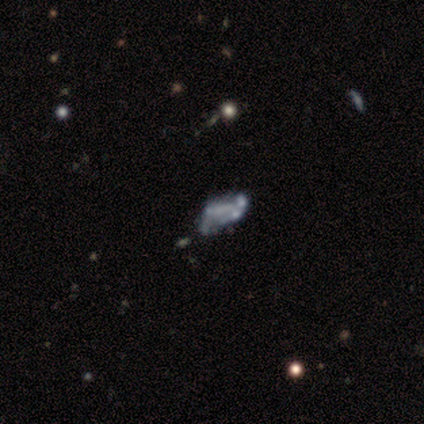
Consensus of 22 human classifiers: Smooth or featured?
  - featured or disk: 41% *
  - smooth: 32%
  - star or artifact: 27%
Edge-on disk?
  - no: 89% *
  - yes: 11%
Bar?
  - no: 75% *
  - strong: 12%
  - weak: 12%
Spiral arms?
  - no: 62% *
  - yes: 38%
Bulge size?
  - none: 75% *
  - moderate: 12%
  - small: 12%
  - dominant: 0%
  - large: 0%
Merging?
  - merger: 38% *
  - none: 25%
  - minor disturbance: 19%
  - major disturbance: 19%